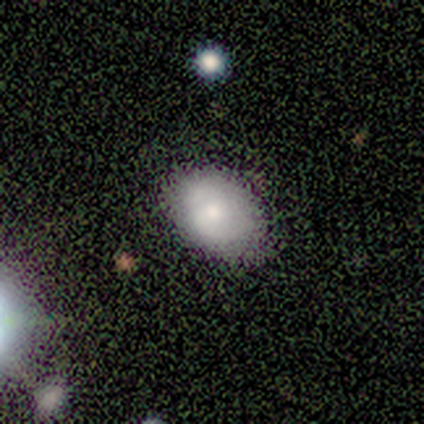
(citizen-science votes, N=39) Q: Smooth or featured?
A: smooth (74%); runner-up: featured or disk (23%)
Q: How rounded?
A: in between (86%); runner-up: round (14%)
Q: Merging?
A: none (71%); runner-up: minor disturbance (26%)